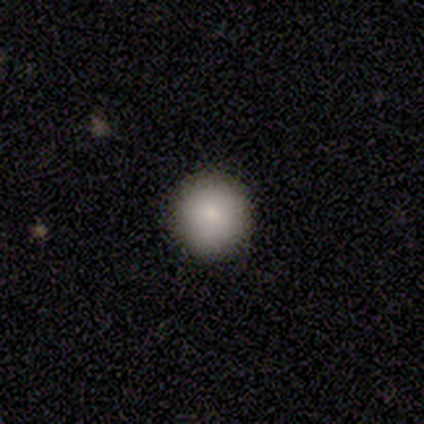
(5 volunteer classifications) Overall: smooth (80%). How rounded: round (75%). Merging: none (80%).